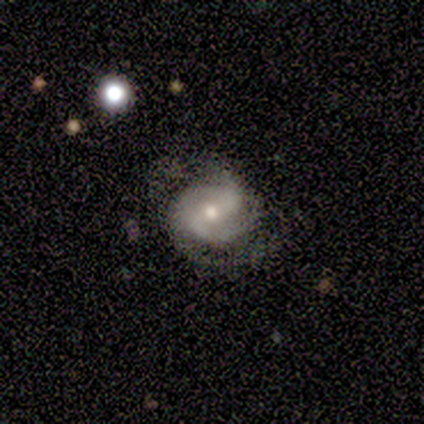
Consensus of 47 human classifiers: Smooth or featured?
  - featured or disk: 72% *
  - star or artifact: 17%
  - smooth: 11%
Edge-on disk?
  - no: 97% *
  - yes: 3%
Bar?
  - weak: 52% *
  - strong: 30%
  - no: 18%
Spiral arms?
  - yes: 91% *
  - no: 9%
Spiral winding?
  - medium: 60% *
  - tight: 30%
  - loose: 10%
Spiral arm count?
  - 2: 77% *
  - 3: 13%
  - can't tell: 10%
  - 1: 0%
  - 4: 0%
  - more than 4: 0%
Bulge size?
  - moderate: 52% *
  - small: 45%
  - large: 3%
  - dominant: 0%
  - none: 0%
Merging?
  - none: 64% *
  - minor disturbance: 21%
  - major disturbance: 15%
  - merger: 0%